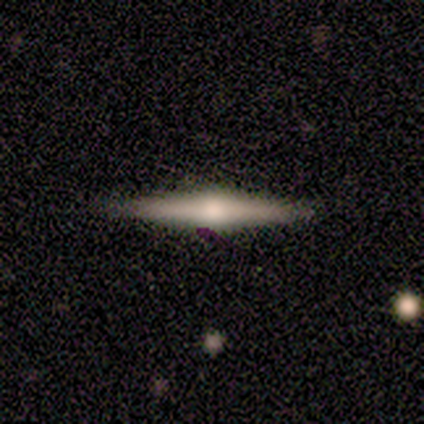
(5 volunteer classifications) A smooth galaxy with no disk features (60%) that is cigar-shaped (100%). Merging: none (80%).